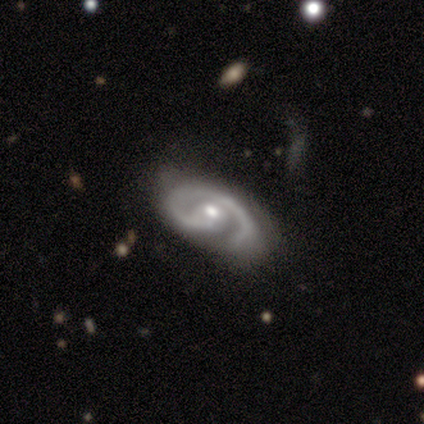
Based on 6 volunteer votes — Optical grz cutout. It shows a featured or disk galaxy (67%) with a weak bar (50%), 1 (75%) medium (100%) spiral arms (100%) and a moderate central bulge (75%). Merging: none (100%).